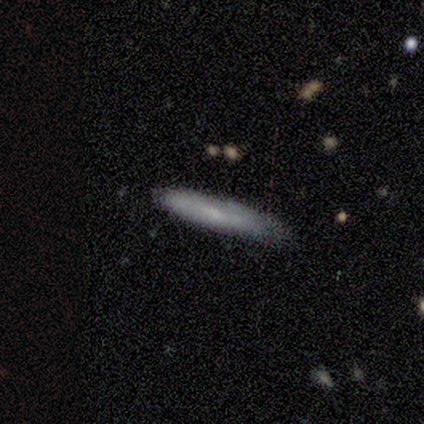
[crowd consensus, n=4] This is likely a smooth galaxy (75%). How rounded: clearly cigar-shaped (100%). Merging: likely none (67%).